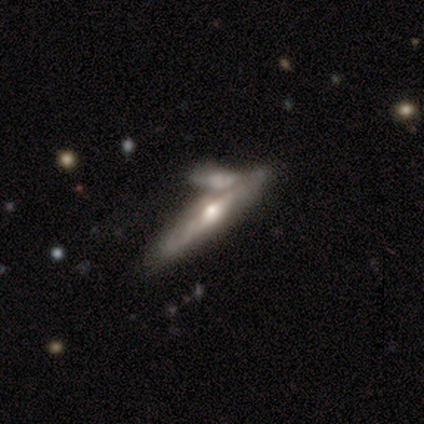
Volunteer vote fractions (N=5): Overall: featured or disk (80%). Edge-on disk: yes (50%, tied with no). Edge-on bulge: rounded (100%). Merging: none (75%).